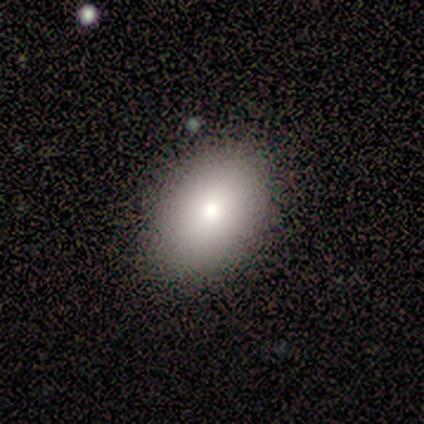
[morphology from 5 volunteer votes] Smooth or featured: smooth — 80% (featured or disk — 20%)
How rounded: in between — 75% (round — 25%)
Merging: none — 80% (minor disturbance — 20%)